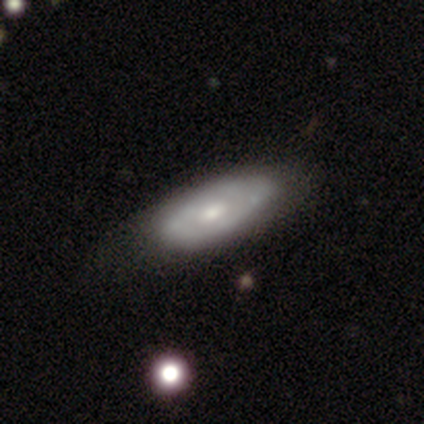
Smooth or featured: featured or disk — 59% (smooth — 41%)
Edge-on disk: no — 91% (yes — 9%)
Bar: no — 76% (weak — 24%)
Spiral arms: no — 67% (yes — 33%)
Bulge size: moderate — 52% (small — 33%)
Merging: none — 59% (minor disturbance — 15%)